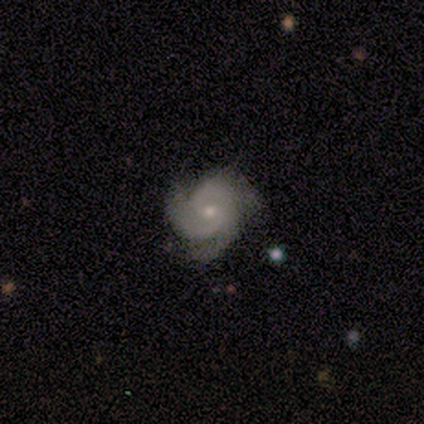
Smooth or featured? featured or disk (100%)
Edge-on disk? no (100%)
Bar? no (100%)
Spiral arms? yes (100%)
Spiral winding? medium (80%)
Spiral arm count? 3 (80%)
Bulge size? small (100%)
Merging? none (100%)